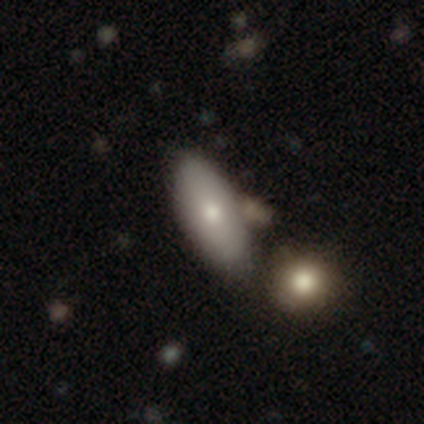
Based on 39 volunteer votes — Volunteers were most divided on "merging": none: 36%, merger: 31%, minor disturbance: 5%, major disturbance: 3%. More confident: how rounded — in between (88%); smooth or featured — smooth (87%).